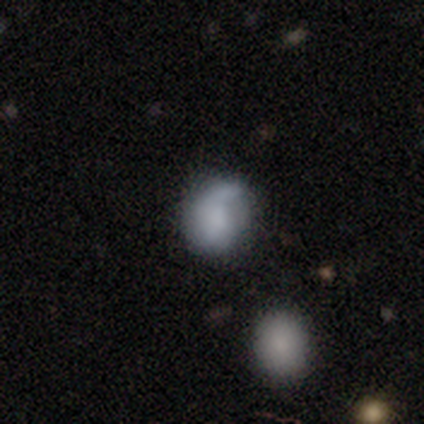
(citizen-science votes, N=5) This appears to be a smooth galaxy with no disk features (80%) that is round (50%, tied with in between). Merging: none (60%).